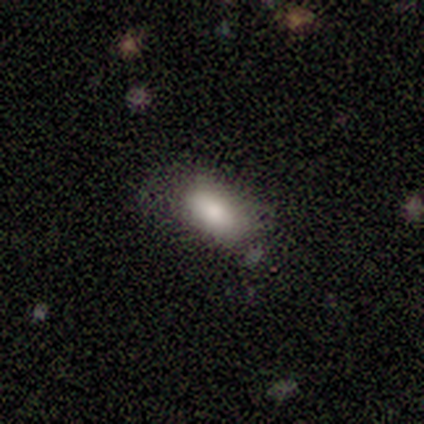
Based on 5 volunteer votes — This appears to be a smooth galaxy with no disk features (80%) that is in between round and cigar-shaped (100%). Merging: none (50%, tied with minor disturbance).